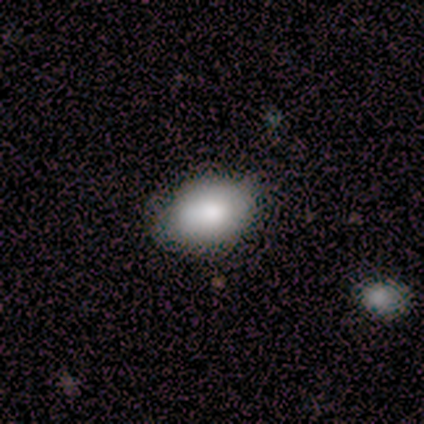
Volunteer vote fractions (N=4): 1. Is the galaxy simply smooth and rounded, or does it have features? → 75% smooth, 25% featured or disk, 0% star or artifact.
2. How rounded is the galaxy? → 100% in between, 0% round, 0% cigar-shaped.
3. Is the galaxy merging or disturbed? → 50% none (tied), 50% minor disturbance (tied), 0% major disturbance, 0% merger.